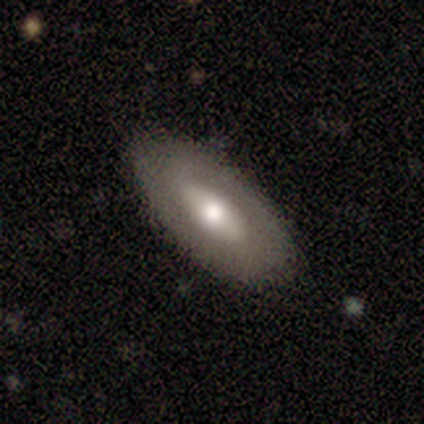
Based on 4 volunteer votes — Smooth or featured? smooth (50%, tied with featured or disk)
How rounded? in between (100%)
Merging? none (100%)